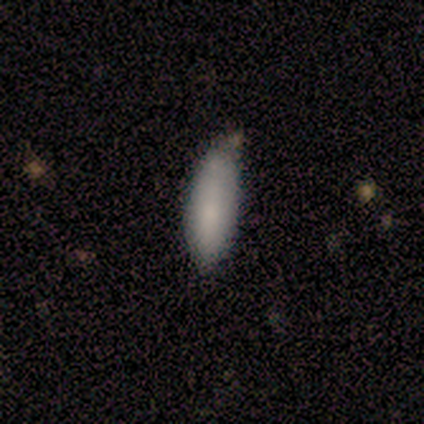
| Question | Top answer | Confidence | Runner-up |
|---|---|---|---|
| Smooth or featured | smooth | 67% | featured or disk (33%) |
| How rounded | cigar-shaped | 100% | — |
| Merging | none | 67% | minor disturbance (33%) |